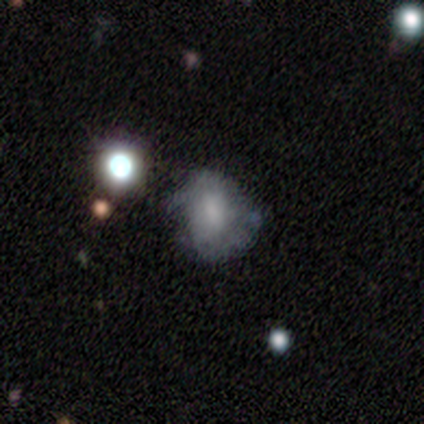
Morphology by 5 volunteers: smooth 60%, featured or disk 40%, star or artifact 0%. Down the decision tree: how rounded — in between (67%); merging — none (60%).